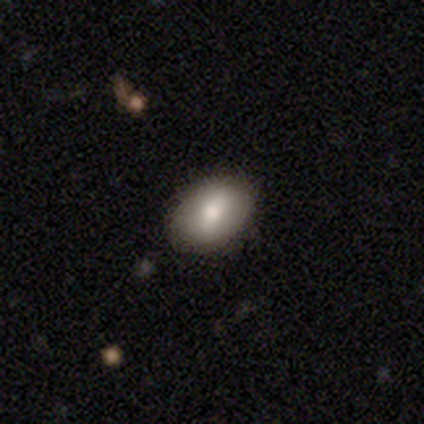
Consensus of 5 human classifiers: Q: Smooth or featured?
A: smooth (100%)
Q: How rounded?
A: in between (80%); runner-up: round (20%)
Q: Merging?
A: none (80%); runner-up: minor disturbance (20%)